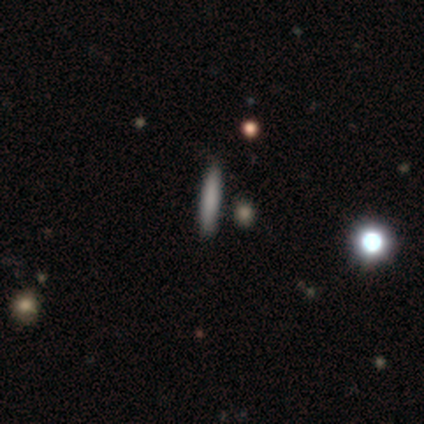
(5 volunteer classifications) Overall: smooth (80%). How rounded: cigar-shaped (100%). Merging: none (100%).